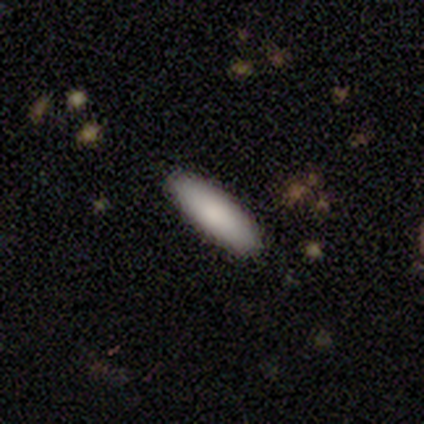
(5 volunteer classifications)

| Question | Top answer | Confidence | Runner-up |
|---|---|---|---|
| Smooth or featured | smooth | 100% | — |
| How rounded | cigar-shaped | 80% | in between (20%) |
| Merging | none | 100% | — |